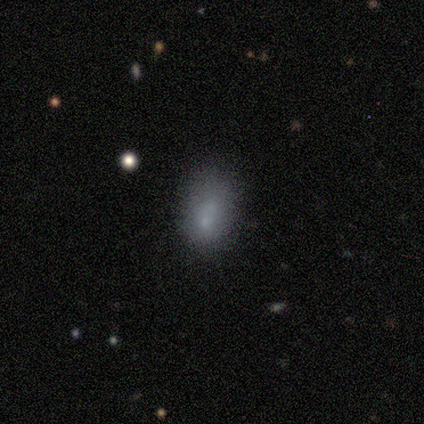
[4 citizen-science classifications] This is clearly a smooth galaxy (100%). How rounded: possibly round (50%, tied with in between). Merging: clearly none (100%).